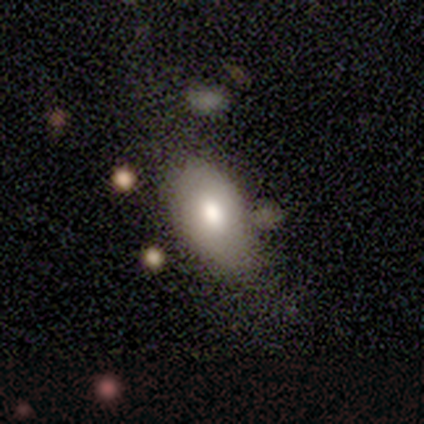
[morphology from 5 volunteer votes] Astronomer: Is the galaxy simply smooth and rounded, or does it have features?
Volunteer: smooth — 80%.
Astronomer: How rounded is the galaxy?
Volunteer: in between — 100%.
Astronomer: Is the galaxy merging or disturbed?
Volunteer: none — 50%, tied with minor disturbance at 50%.